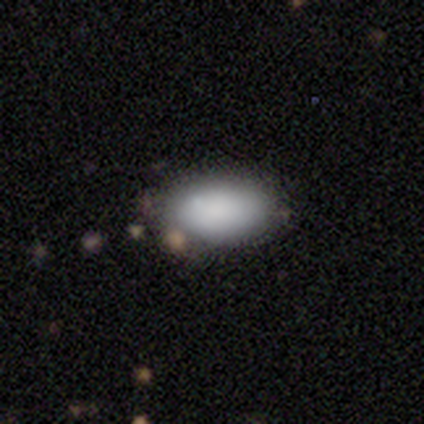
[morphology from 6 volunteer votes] type=smooth (100%); roundness=in between (100%); merging=none (83%).